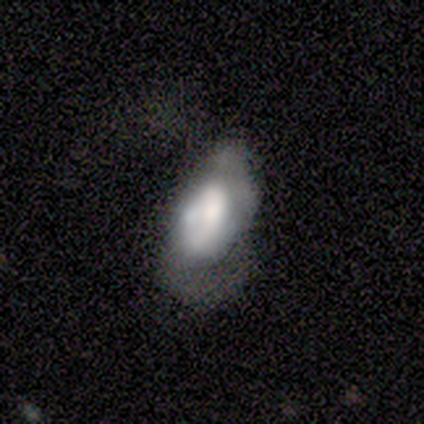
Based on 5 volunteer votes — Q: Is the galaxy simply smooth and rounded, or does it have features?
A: smooth — 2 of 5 (40%, tied with star or artifact).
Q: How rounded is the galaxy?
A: in between — 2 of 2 (100%).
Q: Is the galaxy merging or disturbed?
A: major disturbance — 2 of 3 (67%).